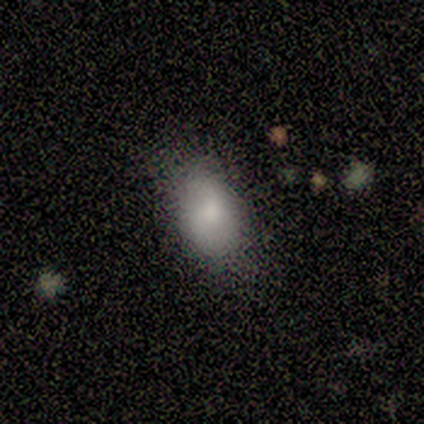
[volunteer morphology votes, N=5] smooth-or-featured: smooth: 80% | star or artifact: 20% | featured or disk: 0%
  how-rounded: in between: 100% | round: 0% | cigar-shaped: 0%
  merging: none: 100% | minor disturbance: 0% | major disturbance: 0% | merger: 0%